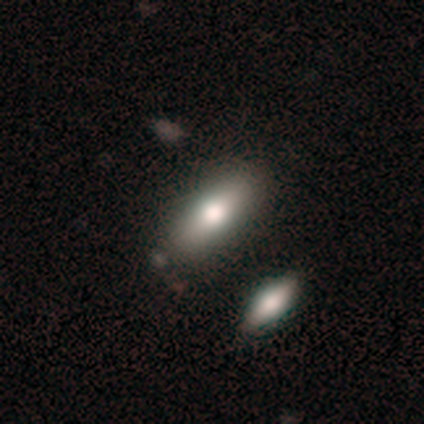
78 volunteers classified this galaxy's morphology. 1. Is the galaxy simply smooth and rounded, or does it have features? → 76% smooth, 15% featured or disk, 9% star or artifact.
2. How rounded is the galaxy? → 78% in between, 19% cigar-shaped, 3% round.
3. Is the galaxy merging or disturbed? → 37% none, 21% merger, 7% minor disturbance, 0% major disturbance.